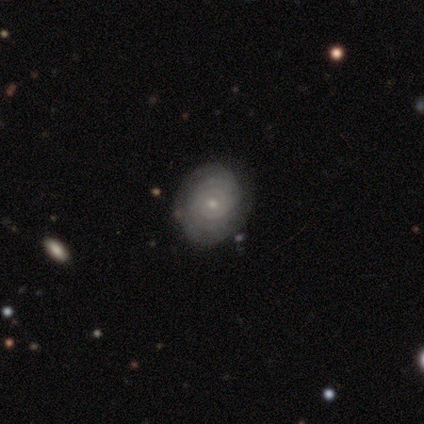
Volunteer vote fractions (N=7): A featured or disk galaxy (86%) with no bar (60%), tight (100%) spiral arms (100%) and a small central bulge (80%). Merging: none (57%).